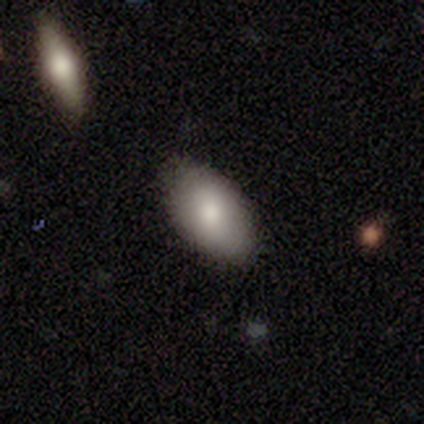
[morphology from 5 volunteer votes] Smooth or featured? 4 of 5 (80%) said smooth. How rounded? 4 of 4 (100%) said in between. Merging? 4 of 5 (80%) said none.